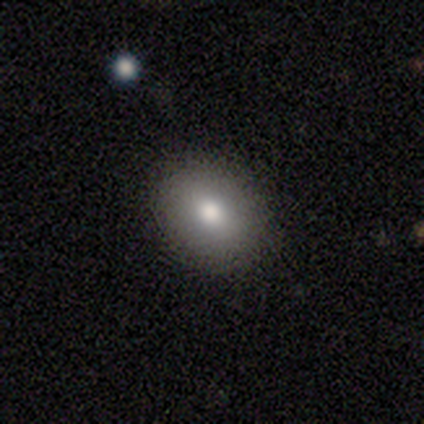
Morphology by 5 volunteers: smooth-or-featured: smooth: 100% | featured or disk: 0% | star or artifact: 0%
  how-rounded: round: 60% | in between: 40% | cigar-shaped: 0%
  merging: none: 100% | minor disturbance: 0% | major disturbance: 0% | merger: 0%